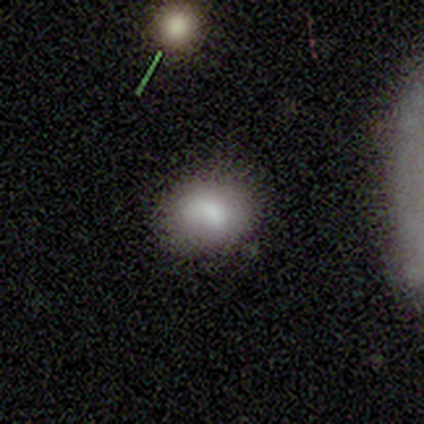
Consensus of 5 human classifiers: A smooth galaxy with no disk features (80%) that is round (75%). Merging: none (100%).